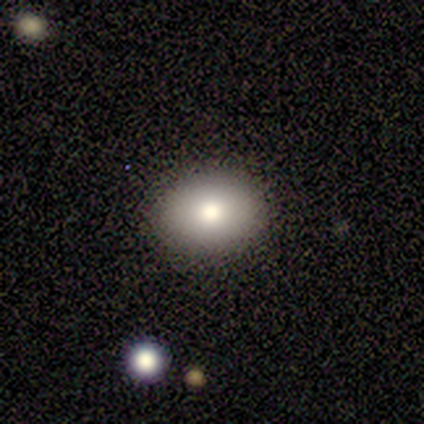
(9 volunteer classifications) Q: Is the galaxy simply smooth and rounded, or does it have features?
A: smooth — 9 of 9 (100%).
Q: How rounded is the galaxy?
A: in between — 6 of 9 (67%).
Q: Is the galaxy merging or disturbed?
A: none — 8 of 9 (89%).